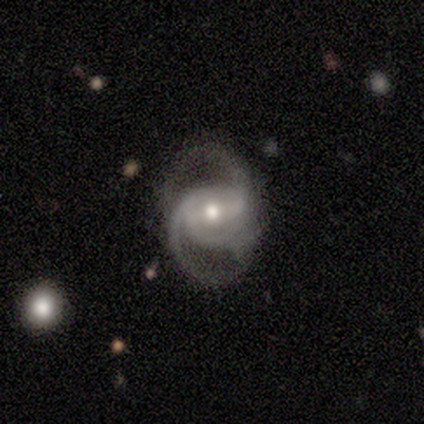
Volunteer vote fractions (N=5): Morphology: type=featured or disk (100%); edge-on=no (60%); bar=weak (67%); spiral arms=yes (100%); winding=medium (67%); arm count=2 (33%, tied with 3 and can't tell); bulge=moderate (67%); merging=none (100%).